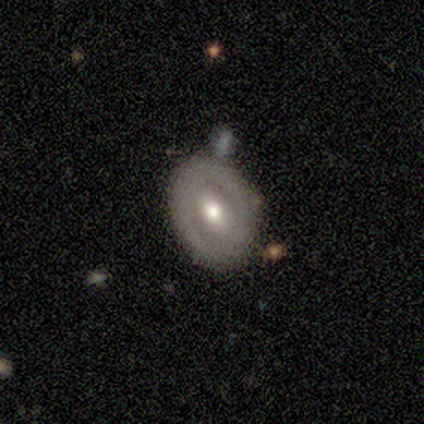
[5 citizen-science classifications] Overall: featured or disk (60%; smooth 40%). Edge-on disk: no (67%; yes 33%). Bar: strong (50%, tied with weak). Spiral arms: no (100%). Bulge size: moderate (100%). Merging: none (60%; merger 40%).